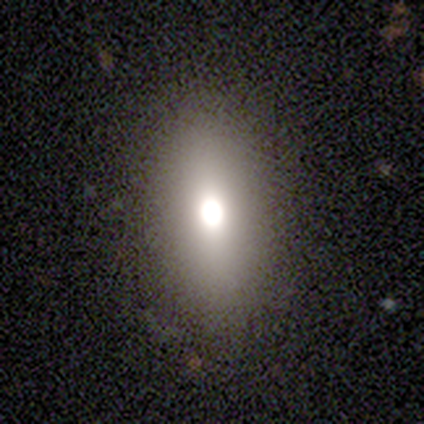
Smooth or featured? featured or disk (75%)
Edge-on disk? no (100%)
Bar? no (67%)
Spiral arms? no (100%)
Bulge size? dominant (33%, tied with large and none)
Merging? none (75%)